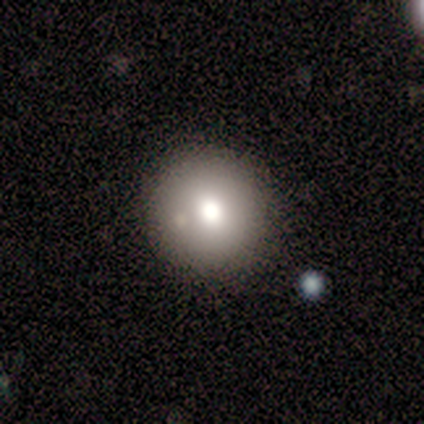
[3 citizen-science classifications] A smooth galaxy with no disk features (100%) that is round (67%). Merging: none (100%).